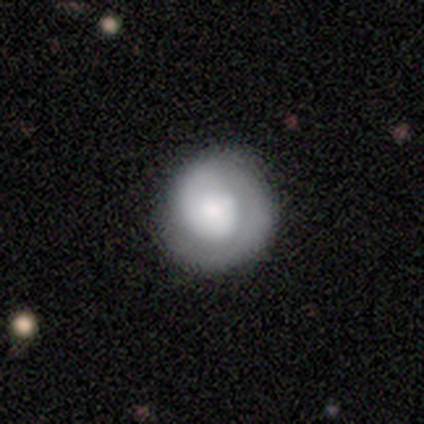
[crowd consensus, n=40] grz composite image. It shows a featured or disk galaxy (82%) with no bar (88%), 1 (68%) tight (86%) spiral arms (88%) and a large central bulge (34%). Merging: none (55%).